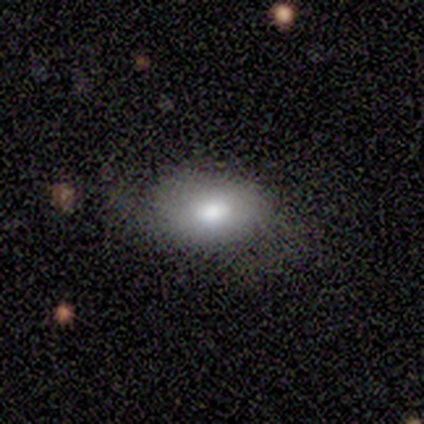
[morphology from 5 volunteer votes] Smooth or featured: smooth — 80% (featured or disk — 20%)
How rounded: round — 75% (in between — 25%)
Merging: none — 60% (minor disturbance — 20%)